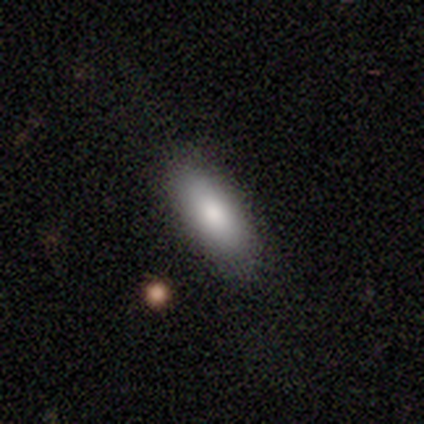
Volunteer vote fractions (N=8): Smooth or featured?
  - smooth: 88% *
  - featured or disk: 12%
  - star or artifact: 0%
How rounded?
  - in between: 71% *
  - cigar-shaped: 29%
  - round: 0%
Merging?
  - none: 75% *
  - minor disturbance: 25%
  - major disturbance: 0%
  - merger: 0%